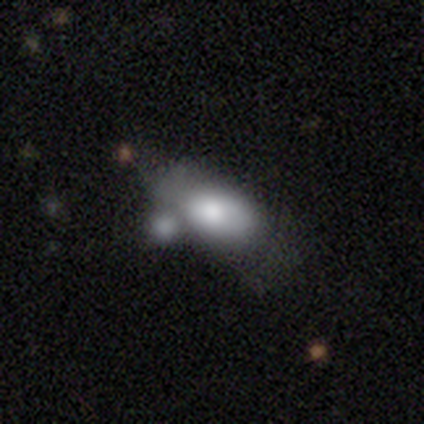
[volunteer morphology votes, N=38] smooth_or_featured: smooth (p=0.82) [alt: featured or disk p=0.16]
how_rounded: in between (p=1.00)
merging: merger (p=0.46) [alt: minor disturbance p=0.30]